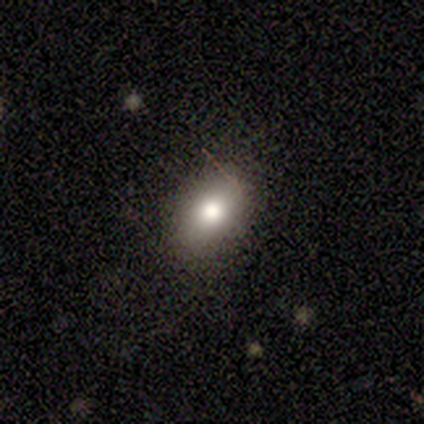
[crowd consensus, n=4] smooth-or-featured: smooth: 100% | featured or disk: 0% | star or artifact: 0%
  how-rounded: in between: 100% | round: 0% | cigar-shaped: 0%
  merging: none: 75% | minor disturbance: 25% | major disturbance: 0% | merger: 0%